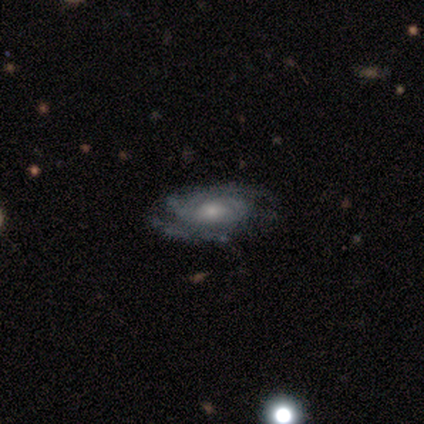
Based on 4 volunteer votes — Smooth or featured? featured or disk (75%)
Edge-on disk? no (100%)
Bar? no (67%)
Spiral arms? yes (100%)
Spiral winding? tight (67%)
Spiral arm count? 2 (33%, tied with 3 and can't tell)
Bulge size? small (67%)
Merging? none (75%)